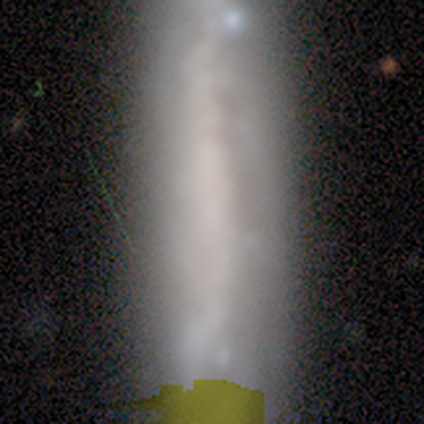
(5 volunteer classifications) A smooth galaxy with no disk features (60%) that is cigar-shaped (100%). Merging: none (60%).